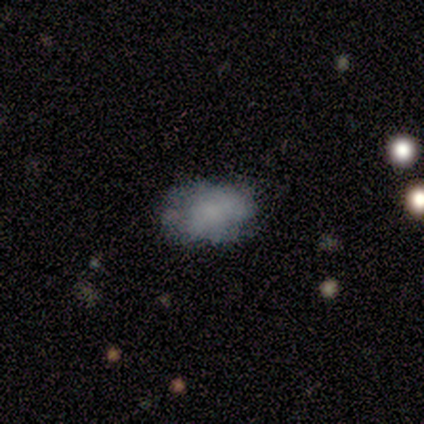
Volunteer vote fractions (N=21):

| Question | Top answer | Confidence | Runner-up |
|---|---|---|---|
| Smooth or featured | smooth | 62% | featured or disk (33%) |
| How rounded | in between | 85% | round (15%) |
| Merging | none | 65% | minor disturbance (30%) |